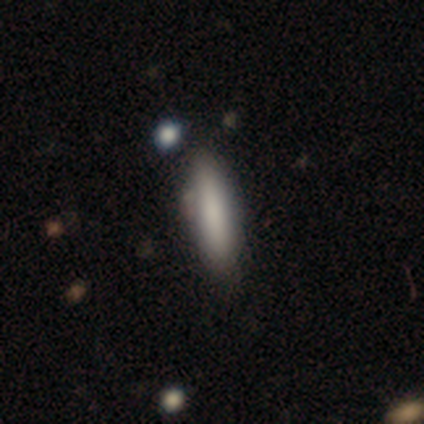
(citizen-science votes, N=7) smooth-or-featured: smooth: 100% | featured or disk: 0% | star or artifact: 0%
  how-rounded: cigar-shaped: 57% | in between: 43% | round: 0%
  merging: none: 86% | minor disturbance: 14% | major disturbance: 0% | merger: 0%